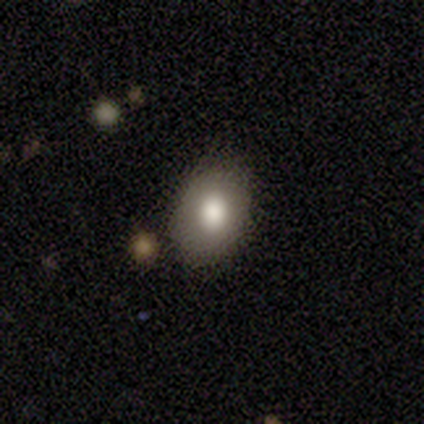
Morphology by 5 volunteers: A smooth galaxy with no disk features (60%) that is in between round and cigar-shaped (100%).

Vote fractions:
- Smooth or featured? smooth: 60% / featured or disk: 20% / star or artifact: 20%
- How rounded? in between: 100% / round: 0% / cigar-shaped: 0%
- Merging? none: 75% / minor disturbance: 25% / major disturbance: 0% / merger: 0%